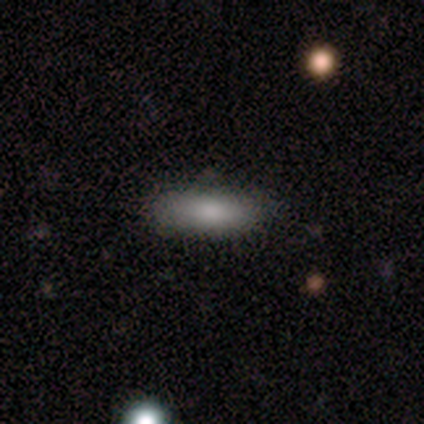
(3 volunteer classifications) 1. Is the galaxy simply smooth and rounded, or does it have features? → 100% smooth, 0% featured or disk, 0% star or artifact.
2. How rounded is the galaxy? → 67% in between, 33% cigar-shaped, 0% round.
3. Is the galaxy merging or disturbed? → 100% none, 0% minor disturbance, 0% major disturbance, 0% merger.